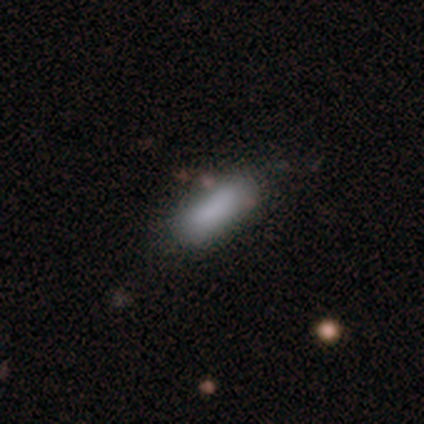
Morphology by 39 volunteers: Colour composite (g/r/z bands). It shows a smooth galaxy with no disk features (92%) that is in between round and cigar-shaped (61%). Merging: none (76%).